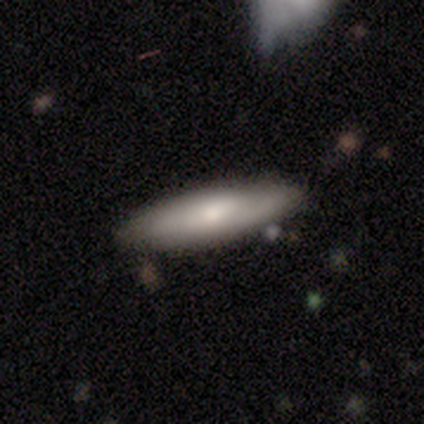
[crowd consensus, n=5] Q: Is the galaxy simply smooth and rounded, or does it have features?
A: smooth — 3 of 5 (60%).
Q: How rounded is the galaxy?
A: cigar-shaped — 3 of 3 (100%).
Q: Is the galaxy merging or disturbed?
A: none — 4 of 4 (100%).